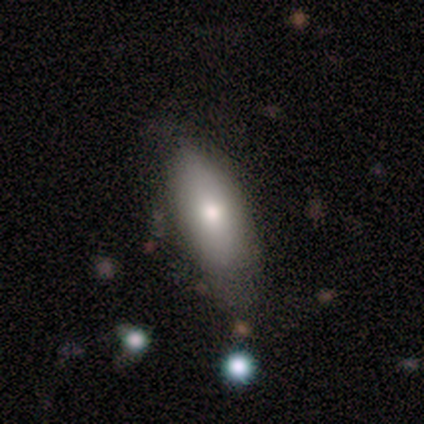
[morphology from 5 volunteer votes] Smooth or featured: smooth — 80% (featured or disk — 20%)
How rounded: in between — 100%
Merging: none — 40% (tied with minor disturbance — 40%)